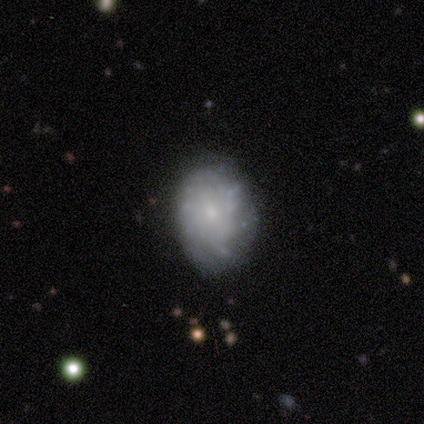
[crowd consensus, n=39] Smooth or featured: featured or disk — 72% (smooth — 23%)
Edge-on disk: no — 100%
Bar: no — 93% (strong — 4%)
Spiral arms: no — 57% (yes — 43%)
Bulge size: small — 64% (moderate — 25%)
Merging: none — 84% (minor disturbance — 16%)